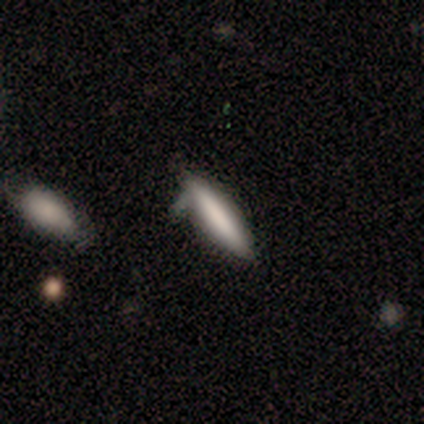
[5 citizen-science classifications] Smooth or featured?
  - smooth: 80% *
  - star or artifact: 20%
  - featured or disk: 0%
How rounded?
  - cigar-shaped: 100% *
  - round: 0%
  - in between: 0%
Merging?
  - none: 75% *
  - minor disturbance: 25%
  - major disturbance: 0%
  - merger: 0%